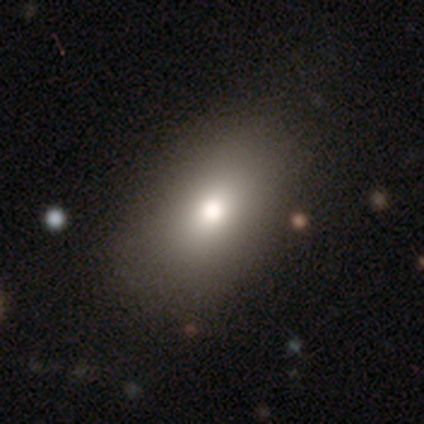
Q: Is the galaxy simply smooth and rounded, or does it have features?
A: smooth — 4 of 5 (80%).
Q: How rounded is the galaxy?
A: in between — 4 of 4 (100%).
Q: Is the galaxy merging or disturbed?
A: none — 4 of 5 (80%).